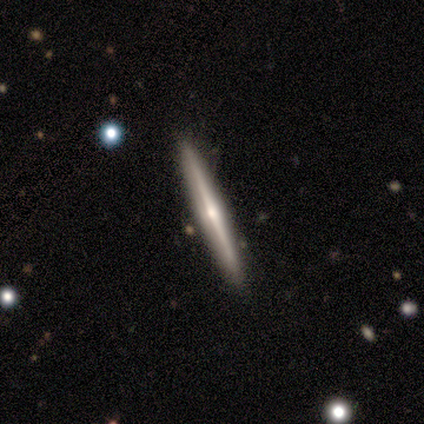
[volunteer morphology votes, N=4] Overall: featured or disk (75%). Edge-on disk: yes (100%). Edge-on bulge: rounded (100%). Merging: none (75%).